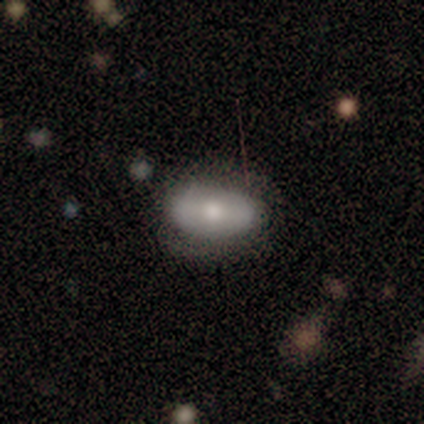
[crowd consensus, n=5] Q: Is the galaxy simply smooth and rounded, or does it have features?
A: smooth — 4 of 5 (80%).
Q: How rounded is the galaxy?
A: round — 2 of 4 (50%, tied with in between).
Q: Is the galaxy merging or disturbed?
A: none — 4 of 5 (80%).